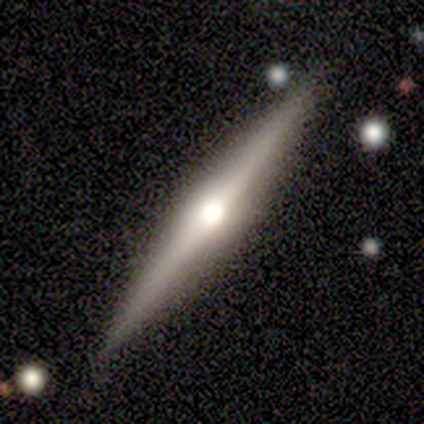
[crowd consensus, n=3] A smooth galaxy with no disk features (67%) that is cigar-shaped (100%).

Vote fractions:
- Smooth or featured? smooth: 67% / featured or disk: 33% / star or artifact: 0%
- How rounded? cigar-shaped: 100% / round: 0% / in between: 0%
- Merging? none: 67% / minor disturbance: 33% / major disturbance: 0% / merger: 0%